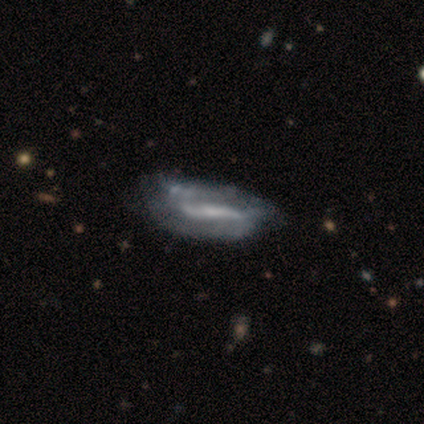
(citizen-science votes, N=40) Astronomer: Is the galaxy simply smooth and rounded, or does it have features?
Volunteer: featured or disk — 78%.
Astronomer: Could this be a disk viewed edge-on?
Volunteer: no — 81%.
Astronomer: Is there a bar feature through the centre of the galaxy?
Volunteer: strong — 64%.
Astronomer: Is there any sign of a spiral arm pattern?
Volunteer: yes — 64%.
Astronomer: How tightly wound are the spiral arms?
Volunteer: loose — 50% (runner-up: medium, 31%).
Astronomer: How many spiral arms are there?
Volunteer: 2 — 69%.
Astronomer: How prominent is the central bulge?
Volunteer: none — 48% (runner-up: small, 36%).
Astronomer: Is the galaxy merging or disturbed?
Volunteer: none — 29% (runner-up: minor disturbance, 24%).